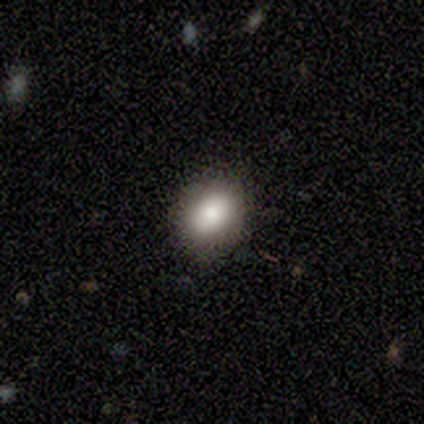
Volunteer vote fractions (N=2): Consensus on every question: smooth or featured — smooth (100%); how rounded — round (100%); merging — none (100%).